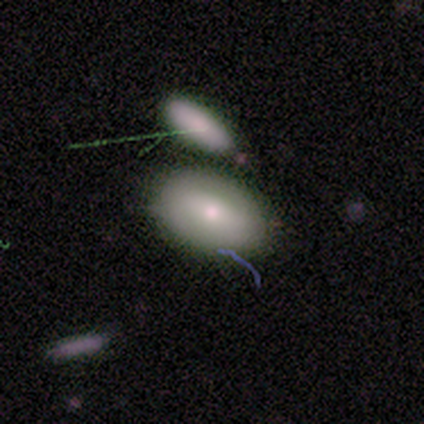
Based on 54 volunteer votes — This is likely a smooth galaxy (65%). How rounded: clearly in between (86%). Merging: possibly none (53%).